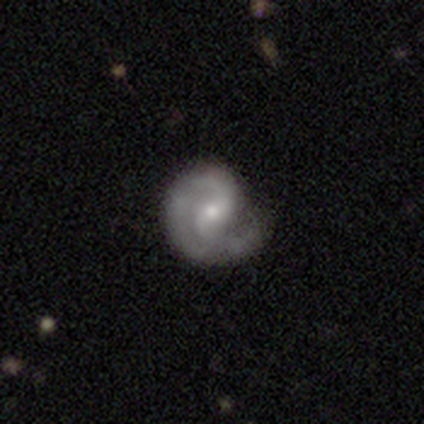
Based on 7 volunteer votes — Morphology: type=featured or disk (100%); edge-on=no (100%); bar=weak (57%); spiral arms=yes (86%); winding=loose (50%); arm count=2 (67%); bulge=small (57%); merging=none (71%).